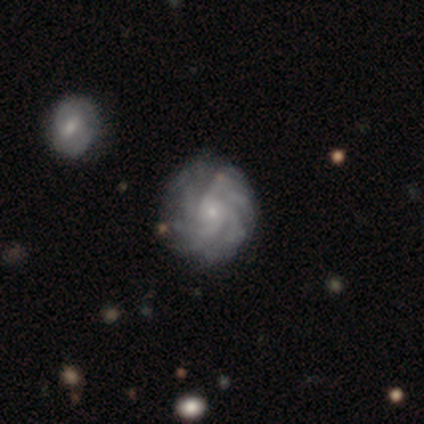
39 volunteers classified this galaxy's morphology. type=featured or disk (90%); edge-on=no (97%); bar=no (82%); spiral arms=yes (100%); winding=tight (62%); arm count=more than 4 (68%); bulge=small (85%); merging=none (84%).